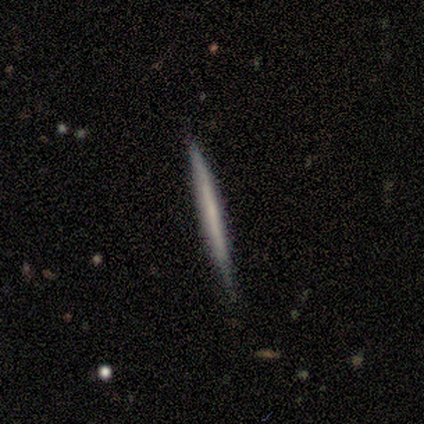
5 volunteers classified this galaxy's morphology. Smooth or featured? featured or disk (100%)
Edge-on disk? yes (100%)
Edge-on bulge? none (100%)
Merging? none (80%)